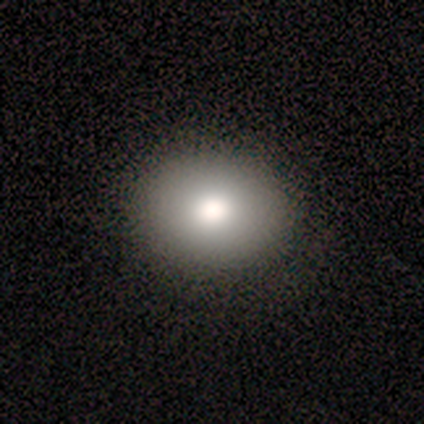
This is clearly a smooth galaxy (100%). How rounded: likely round (60%). Merging: clearly none (100%).